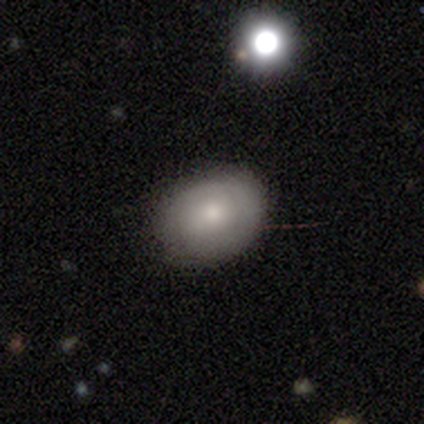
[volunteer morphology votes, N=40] Smooth or featured? smooth (57%)
How rounded? in between (61%)
Merging? none (83%)